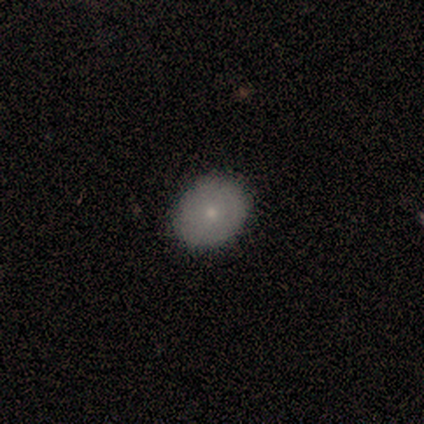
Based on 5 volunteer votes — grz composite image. It shows a smooth galaxy with no disk features (80%) that is in between round and cigar-shaped (75%). Merging: none (100%).